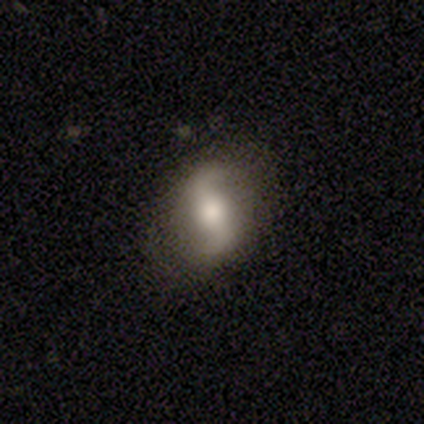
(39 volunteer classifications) smooth-or-featured: featured or disk: 90% | smooth: 10% | star or artifact: 0%
  disk-edge-on: no: 97% | yes: 3%
    bar: strong: 44% | no: 32% | weak: 24%
    has-spiral-arms: yes: 94% | no: 6%
      spiral-winding: loose: 69% | medium: 25% | tight: 6%
      spiral-arm-count: 2: 94% | can't tell: 6% | 1: 0% | 3: 0% | 4: 0% | more than 4: 0%
    bulge-size: moderate: 50% | large: 29% | small: 9% | none: 9% | dominant: 3%
  merging: none: 82% | minor disturbance: 15% | major disturbance: 3% | merger: 0%